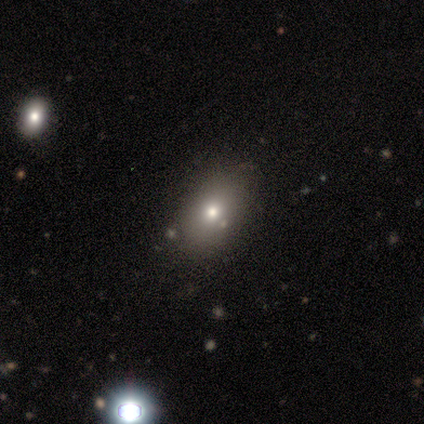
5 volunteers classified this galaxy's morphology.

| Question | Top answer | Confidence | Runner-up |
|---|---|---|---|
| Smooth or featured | smooth | 80% | star or artifact (20%) |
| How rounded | in between | 75% | round (25%) |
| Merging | none | 100% | — |